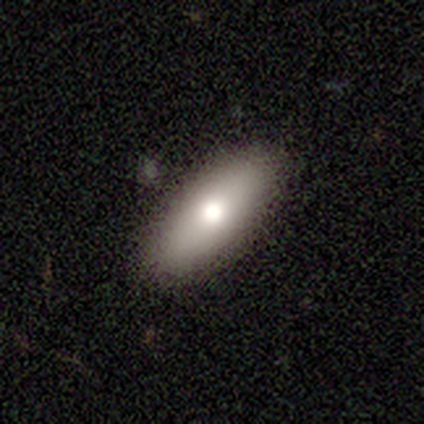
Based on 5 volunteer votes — Smooth or featured? smooth (100%)
How rounded? in between (80%)
Merging? none (100%)